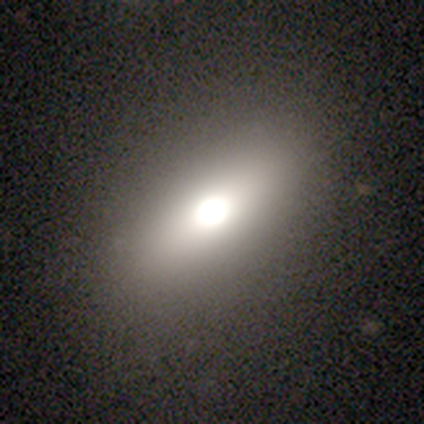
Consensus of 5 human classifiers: A smooth galaxy with no disk features (60%) that is in between round and cigar-shaped (100%).

Vote fractions:
- Smooth or featured? smooth: 60% / featured or disk: 40% / star or artifact: 0%
- How rounded? in between: 100% / round: 0% / cigar-shaped: 0%
- Merging? none: 100% / minor disturbance: 0% / major disturbance: 0% / merger: 0%